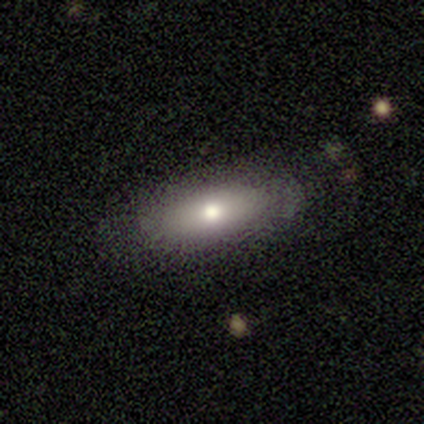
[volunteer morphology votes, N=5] Smooth or featured? 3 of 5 (60%) said smooth. How rounded? 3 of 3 (100%) said in between. Merging? 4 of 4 (100%) said none.